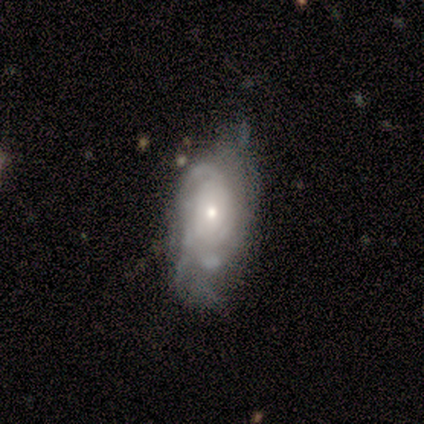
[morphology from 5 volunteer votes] Overall: featured or disk (100%). Edge-on disk: no (100%). Bar: no (100%). Spiral arms: yes (100%). Spiral arm count: can't tell (60%; 2 20%). Spiral winding: tight (100%). Bulge size: small (80%). Merging: minor disturbance (60%; none 40%).